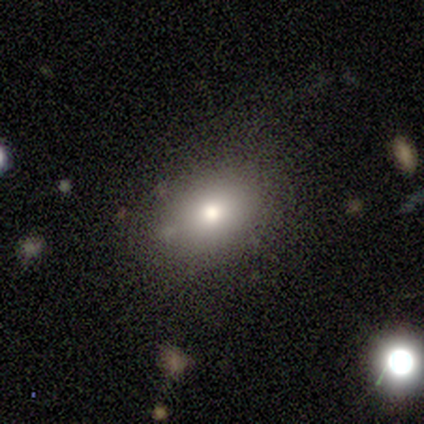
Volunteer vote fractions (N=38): A smooth galaxy with no disk features (79%) that is in between round and cigar-shaped (80%). Merging: none (83%).